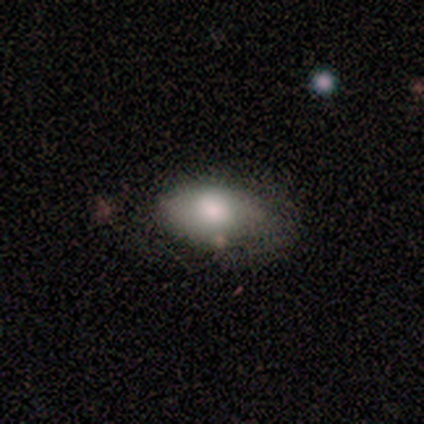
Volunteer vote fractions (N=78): This is clearly a smooth galaxy (88%). How rounded: clearly in between (96%). Merging: marginally none (33%).